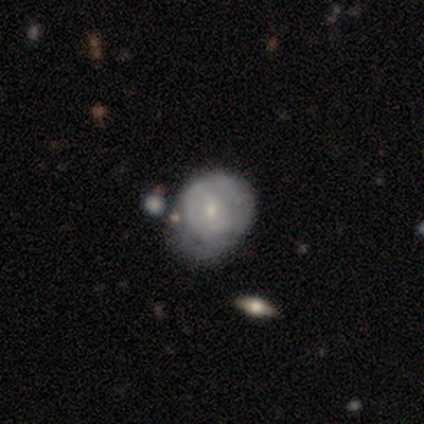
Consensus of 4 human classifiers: Smooth or featured? smooth (50%)
How rounded? round (50%, tied with in between)
Merging? none (67%)